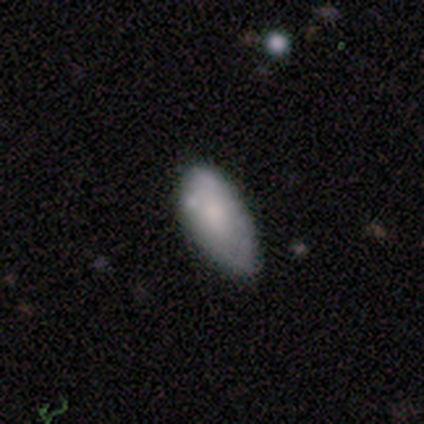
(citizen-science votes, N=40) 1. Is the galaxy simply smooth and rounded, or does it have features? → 72% smooth, 25% featured or disk, 2% star or artifact.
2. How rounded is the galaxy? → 90% in between, 10% cigar-shaped, 0% round.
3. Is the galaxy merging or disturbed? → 59% minor disturbance, 38% none, 3% major disturbance, 0% merger.